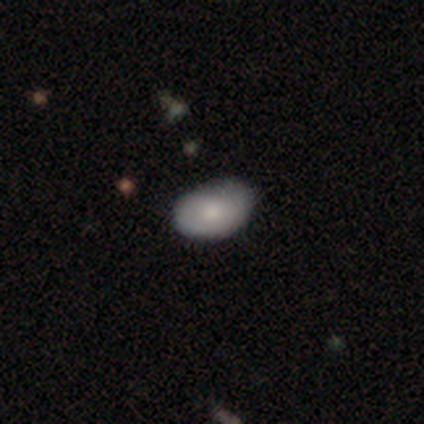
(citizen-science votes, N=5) smooth_or_featured: smooth (p=0.60) [alt: featured or disk p=0.40]
how_rounded: in between (p=0.67) [alt: round p=0.33]
merging: none (p=0.80) [alt: minor disturbance p=0.20]